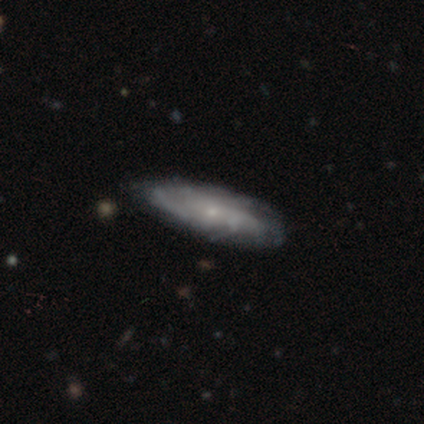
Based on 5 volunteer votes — Smooth or featured? smooth (60%)
How rounded? cigar-shaped (67%)
Merging? none (60%)